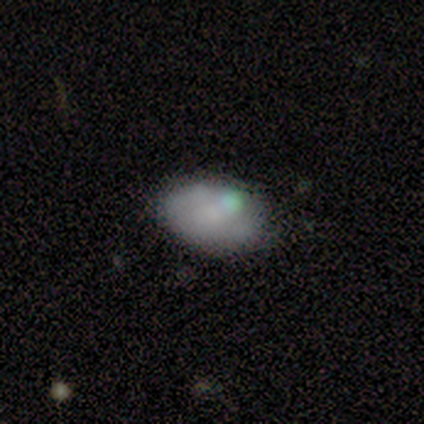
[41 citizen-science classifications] A smooth galaxy with no disk features (54%) that is in between round and cigar-shaped (82%). Merging: none (69%).